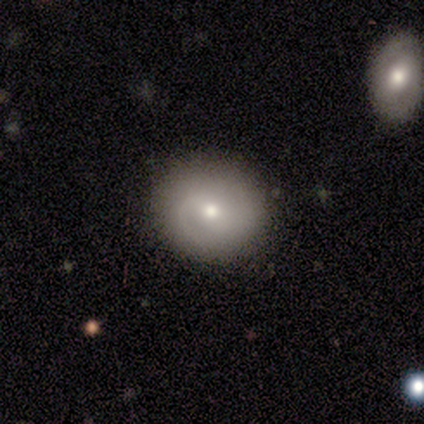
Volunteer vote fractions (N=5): This appears to be a smooth galaxy with no disk features (60%) that is round (100%). Merging: none (100%).